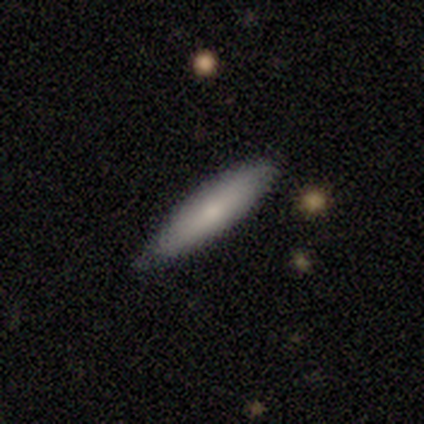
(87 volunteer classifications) Morphology: type=smooth (76%); roundness=cigar-shaped (83%); merging=none (73%).